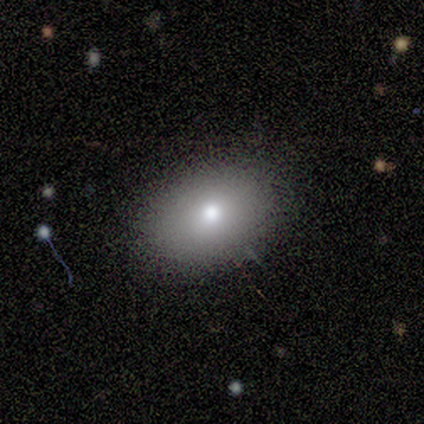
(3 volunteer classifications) Smooth or featured?
  - smooth: 100% *
  - featured or disk: 0%
  - star or artifact: 0%
How rounded?
  - in between: 67% *
  - round: 33%
  - cigar-shaped: 0%
Merging?
  - minor disturbance: 67% *
  - none: 33%
  - major disturbance: 0%
  - merger: 0%